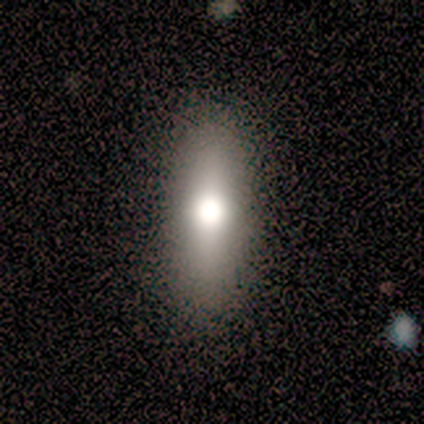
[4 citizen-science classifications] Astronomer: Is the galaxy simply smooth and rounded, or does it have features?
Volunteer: smooth — 100%.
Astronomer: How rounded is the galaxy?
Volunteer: in between — 50%, tied with cigar-shaped at 50%.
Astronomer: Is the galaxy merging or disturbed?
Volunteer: none — 75%.